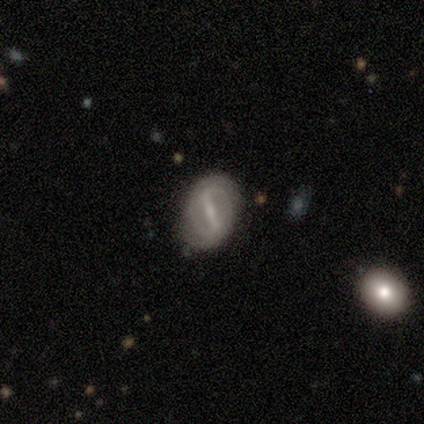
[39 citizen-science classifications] Smooth or featured? 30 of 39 (77%) said featured or disk. Edge-on disk? 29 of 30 (97%) said no. Bar? 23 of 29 (79%) said strong. Spiral arms? 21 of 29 (72%) said yes. Spiral winding? 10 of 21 (48%) said tight. Spiral arm count? 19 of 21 (90%) said 2. Bulge size? 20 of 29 (69%) said small. Merging? 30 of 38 (79%) said none.